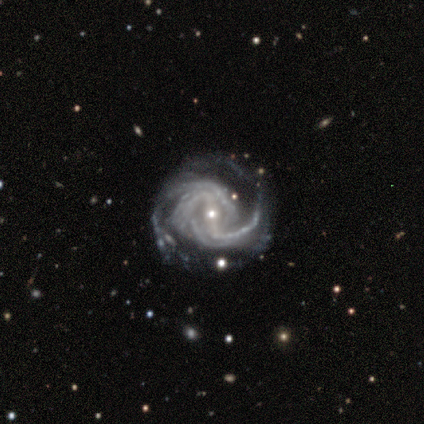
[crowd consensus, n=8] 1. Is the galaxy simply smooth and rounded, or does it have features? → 100% featured or disk, 0% smooth, 0% star or artifact.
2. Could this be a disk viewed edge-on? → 100% no, 0% yes.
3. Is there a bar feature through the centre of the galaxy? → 75% strong, 12% weak, 12% no.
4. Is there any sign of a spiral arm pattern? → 100% yes, 0% no.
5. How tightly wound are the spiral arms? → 62% tight, 38% medium, 0% loose.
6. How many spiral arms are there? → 38% 3, 25% 2, 25% 4, 12% more than 4, 0% 1, 0% can't tell.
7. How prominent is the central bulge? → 62% small, 25% moderate, 12% dominant, 0% large, 0% none.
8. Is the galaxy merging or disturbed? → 50% none, 25% minor disturbance, 25% major disturbance, 0% merger.